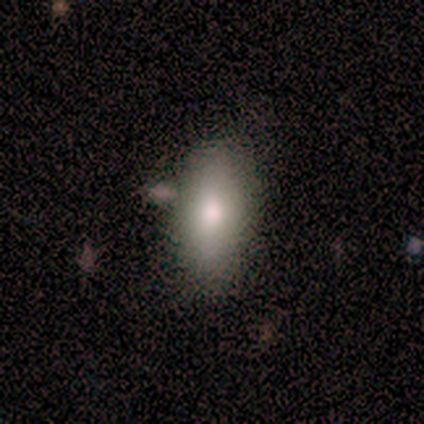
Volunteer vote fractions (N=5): Smooth or featured?
  - smooth: 60% *
  - featured or disk: 40%
  - star or artifact: 0%
How rounded?
  - in between: 100% *
  - round: 0%
  - cigar-shaped: 0%
Merging?
  - none: 100% *
  - minor disturbance: 0%
  - major disturbance: 0%
  - merger: 0%